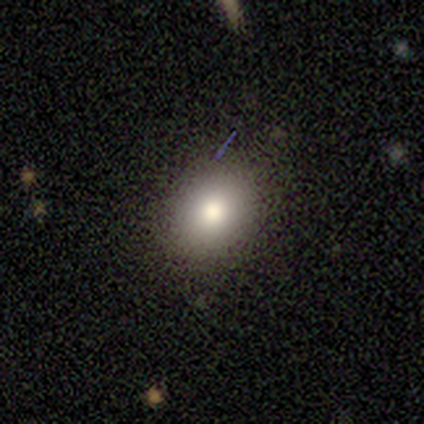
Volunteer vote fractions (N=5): Q: Smooth or featured?
A: smooth (80%); runner-up: featured or disk (20%)
Q: How rounded?
A: in between (75%); runner-up: round (25%)
Q: Merging?
A: none (100%)